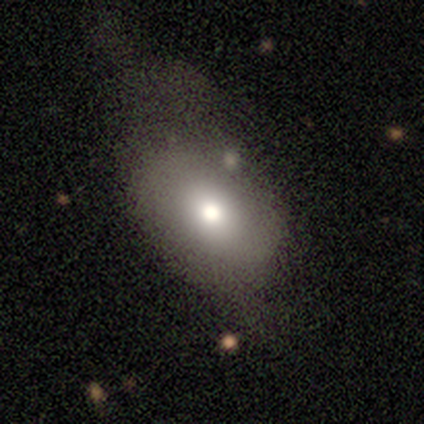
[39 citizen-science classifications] smooth-or-featured: smooth: 79% | featured or disk: 13% | star or artifact: 8%
  how-rounded: in between: 74% | round: 26% | cigar-shaped: 0%
  merging: minor disturbance: 44% | major disturbance: 36% | none: 14% | merger: 6%